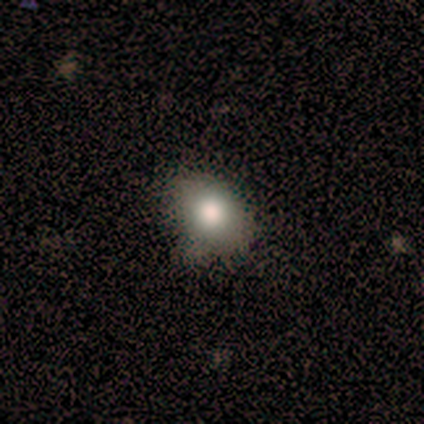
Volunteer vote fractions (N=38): Smooth or featured?
  - smooth: 74% *
  - featured or disk: 13%
  - star or artifact: 13%
How rounded?
  - in between: 68% *
  - round: 32%
  - cigar-shaped: 0%
Merging?
  - none: 67% *
  - minor disturbance: 30%
  - merger: 3%
  - major disturbance: 0%